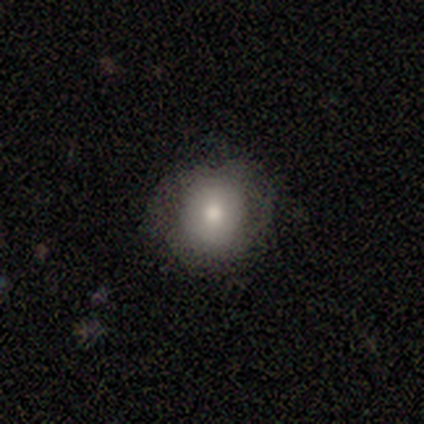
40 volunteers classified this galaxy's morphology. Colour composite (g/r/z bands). It shows a smooth galaxy with no disk features (68%) that is round (96%). Merging: none (81%).